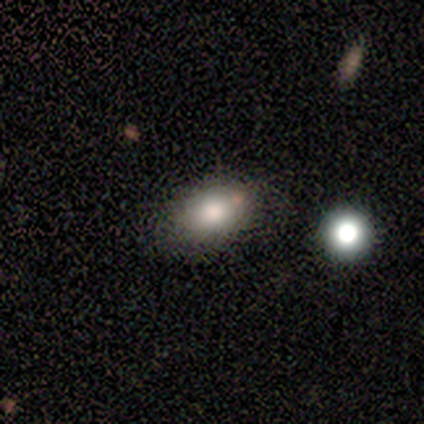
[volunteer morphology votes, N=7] This appears to be a smooth galaxy with no disk features (100%) that is in between round and cigar-shaped (86%). Merging: none (100%).